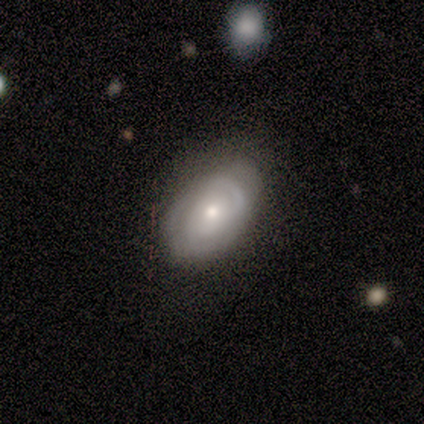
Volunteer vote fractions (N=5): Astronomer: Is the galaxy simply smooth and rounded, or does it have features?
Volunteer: featured or disk — 80%.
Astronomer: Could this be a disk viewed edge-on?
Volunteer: no — 100%.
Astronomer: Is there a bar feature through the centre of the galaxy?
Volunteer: weak — 50%, tied with no at 50%.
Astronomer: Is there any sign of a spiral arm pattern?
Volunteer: yes — 100%.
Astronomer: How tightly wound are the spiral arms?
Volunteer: tight — 50%, tied with medium at 50%.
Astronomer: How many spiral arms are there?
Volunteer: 2 — 50%.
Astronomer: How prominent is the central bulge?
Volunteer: moderate — 75%.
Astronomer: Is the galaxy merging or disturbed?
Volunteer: none — 50%, tied with minor disturbance at 50%.